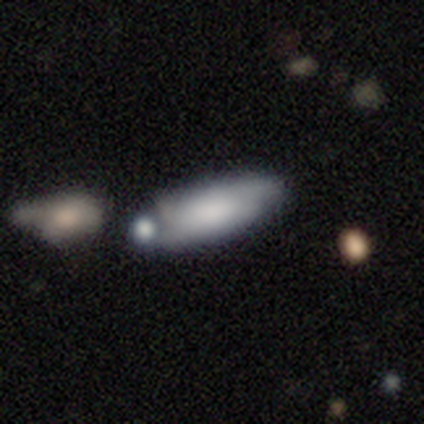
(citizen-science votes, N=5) Overall: smooth (100%). How rounded: in between (100%). Merging: merger (60%; none 40%).